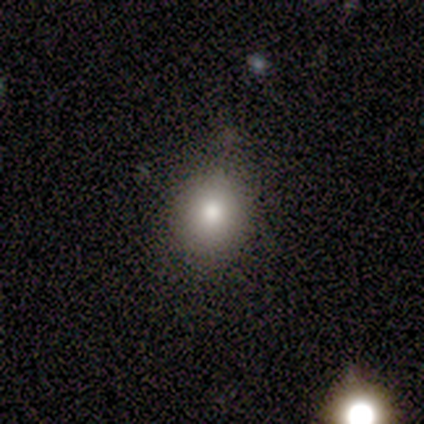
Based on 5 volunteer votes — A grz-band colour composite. It shows a smooth galaxy with no disk features (60%) that is in between round and cigar-shaped (100%). Merging: none (75%).